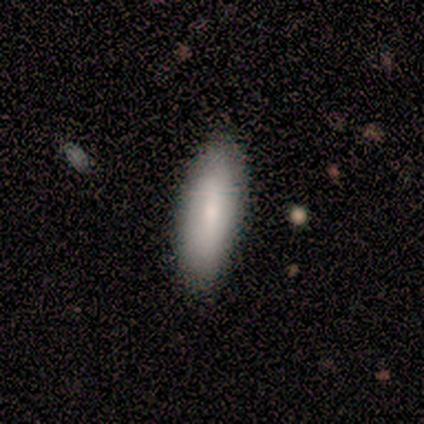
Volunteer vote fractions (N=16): This appears to be a smooth galaxy with no disk features (81%) that is in between round and cigar-shaped (77%). Merging: none (94%).